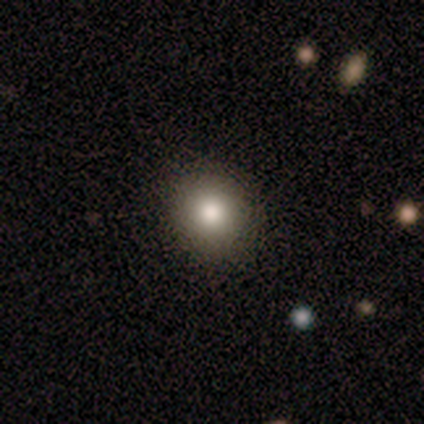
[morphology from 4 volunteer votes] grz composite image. It shows a smooth galaxy with no disk features (100%) that is round (100%). Merging: none (100%).